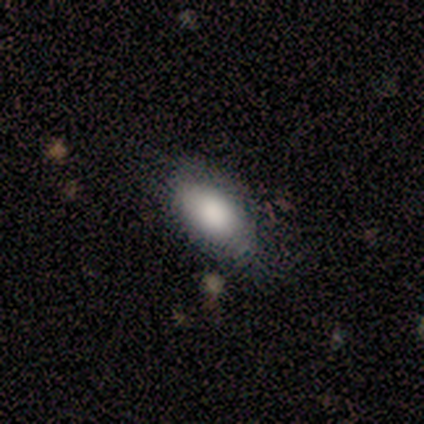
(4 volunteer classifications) Smooth or featured: smooth — 75% (star or artifact — 25%)
How rounded: in between — 100%
Merging: none — 67% (minor disturbance — 33%)